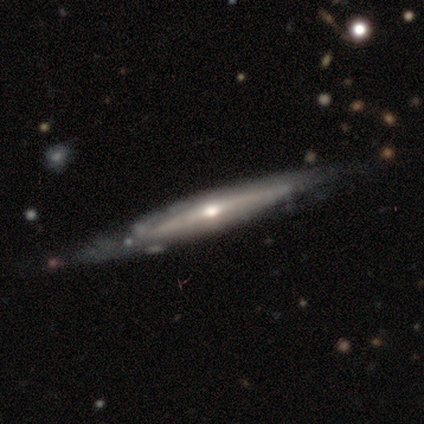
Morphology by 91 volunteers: Volunteers were most divided on "merging": none: 66%, minor disturbance: 26%, merger: 5%, major disturbance: 4%. More confident: edge-on disk — yes (89%); edge-on bulge — rounded (73%); smooth or featured — featured or disk (73%).